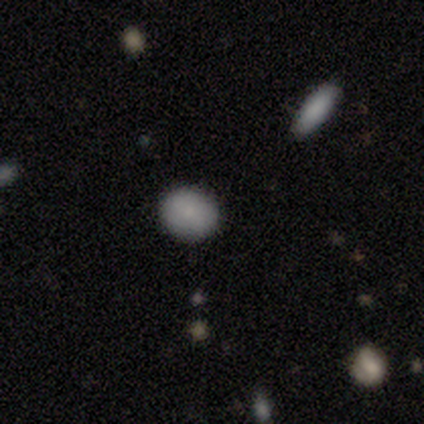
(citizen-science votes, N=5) A smooth galaxy with no disk features (100%) that is round (100%).

Vote fractions:
- Smooth or featured? smooth: 100% / featured or disk: 0% / star or artifact: 0%
- How rounded? round: 100% / in between: 0% / cigar-shaped: 0%
- Merging? none: 100% / minor disturbance: 0% / major disturbance: 0% / merger: 0%